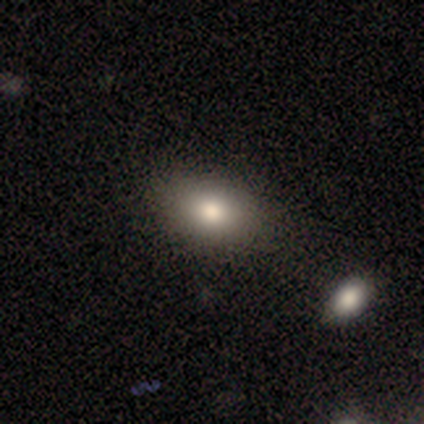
Smooth or featured: smooth — 80% (star or artifact — 20%)
How rounded: in between — 100%
Merging: none — 75% (minor disturbance — 25%)